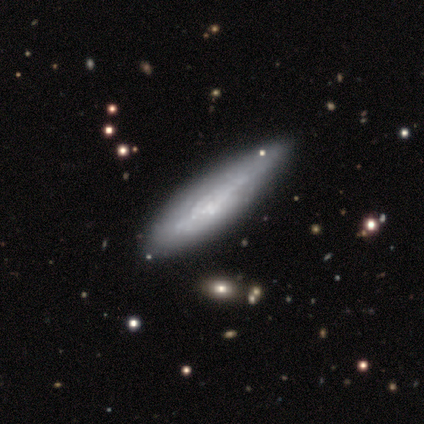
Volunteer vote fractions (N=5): Smooth or featured: featured or disk — 100%
Edge-on disk: no — 80% (yes — 20%)
Bar: no — 100%
Spiral arms: yes — 100%
Spiral winding: tight — 50% (medium — 25%)
Spiral arm count: can't tell — 100%
Bulge size: small — 50% (tied with none — 50%)
Merging: minor disturbance — 60% (none — 20%)